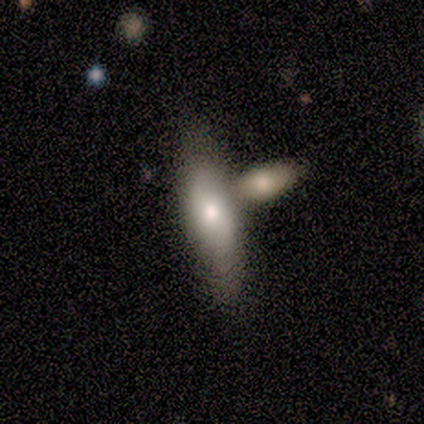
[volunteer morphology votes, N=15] This appears to be a featured or disk galaxy (53%) with no bar (86%), no spiral arms (71%) and a moderate central bulge (71%). Merging: none (53%).